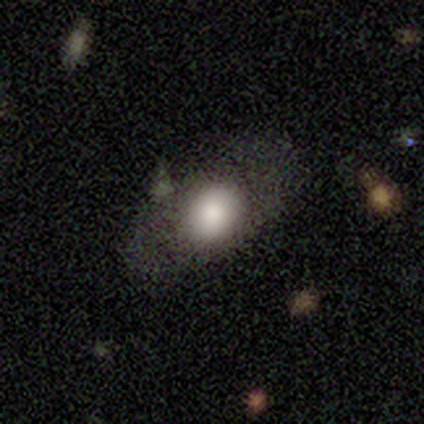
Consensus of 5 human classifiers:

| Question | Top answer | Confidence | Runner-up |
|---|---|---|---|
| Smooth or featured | smooth | 100% | — |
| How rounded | in between | 100% | — |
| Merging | none | 100% | — |